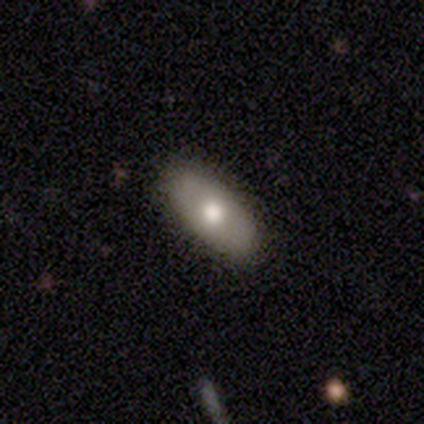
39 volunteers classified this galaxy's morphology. This appears to be a smooth galaxy with no disk features (85%) that is in between round and cigar-shaped (91%). Merging: none (95%).